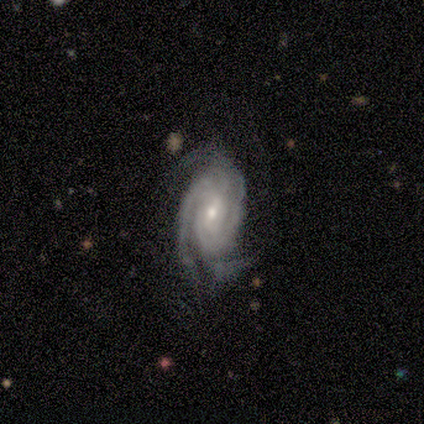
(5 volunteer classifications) Volunteers were most divided on "bar": weak: 60%, strong: 20%, no: 20%. More confident: smooth or featured — featured or disk (100%); edge-on disk — no (100%); spiral arms — yes (100%); spiral arm count — 3 (80%); bulge size — small (80%); merging — none (80%); spiral winding — tight (60%).